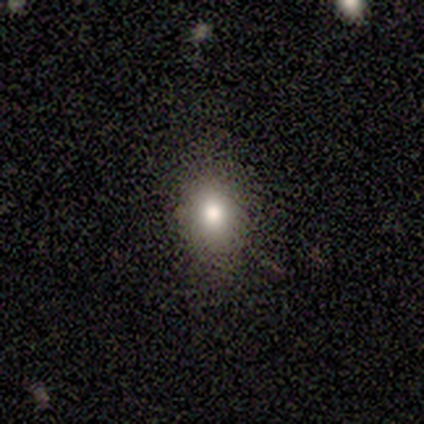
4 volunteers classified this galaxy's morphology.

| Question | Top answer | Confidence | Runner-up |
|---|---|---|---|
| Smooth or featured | smooth | 100% | — |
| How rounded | in between | 75% | round (25%) |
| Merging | none | 100% | — |